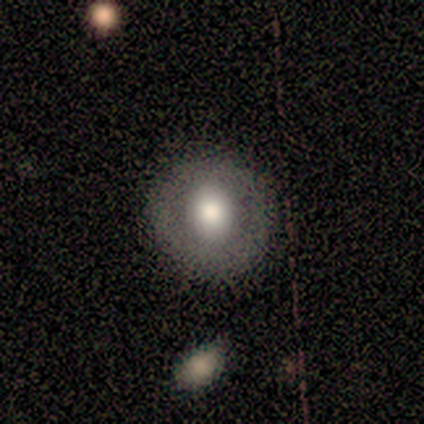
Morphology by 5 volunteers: A smooth galaxy with no disk features (40%, tied with featured or disk) that is round (50%, tied with in between). Merging: none (100%).